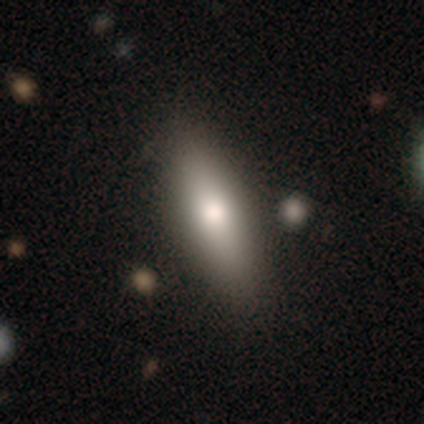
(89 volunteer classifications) smooth_or_featured: smooth (p=0.74) [alt: featured or disk p=0.22]
how_rounded: cigar-shaped (p=0.56) [alt: in between p=0.44]
merging: none (p=0.91) [alt: minor disturbance p=0.06]